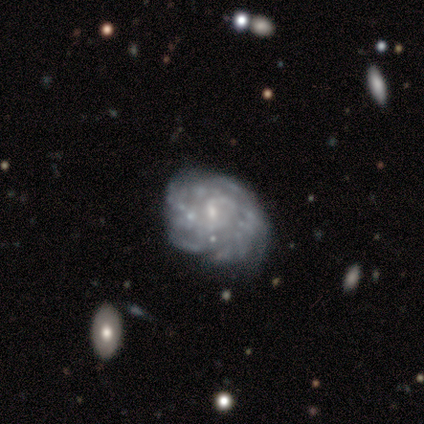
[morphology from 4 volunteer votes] A featured or disk galaxy (100%) with no bar (75%), 4 (33%, tied with more than 4 and can't tell) medium (67%) spiral arms (75%) and a small central bulge (75%).

Vote fractions:
- Smooth or featured? featured or disk: 100% / smooth: 0% / star or artifact: 0%
- Edge-on disk? no: 100% / yes: 0%
- Bar? no: 75% / weak: 25% / strong: 0%
- Spiral arms? yes: 75% / no: 25%
- Spiral winding? medium: 67% / tight: 33% / loose: 0%
- Spiral arm count? 4: 33% (tied) / more than 4: 33% (tied) / can't tell: 33% (tied) / 1: 0% / 2: 0% / 3: 0%
- Bulge size? small: 75% / none: 25% / dominant: 0% / large: 0% / moderate: 0%
- Merging? none: 100% / minor disturbance: 0% / major disturbance: 0% / merger: 0%